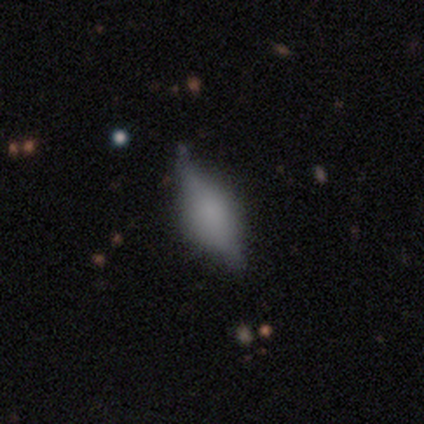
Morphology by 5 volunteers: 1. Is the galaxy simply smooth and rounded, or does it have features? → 80% smooth, 20% featured or disk, 0% star or artifact.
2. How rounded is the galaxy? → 75% in between, 25% cigar-shaped, 0% round.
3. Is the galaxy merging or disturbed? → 60% none, 20% minor disturbance, 20% major disturbance, 0% merger.